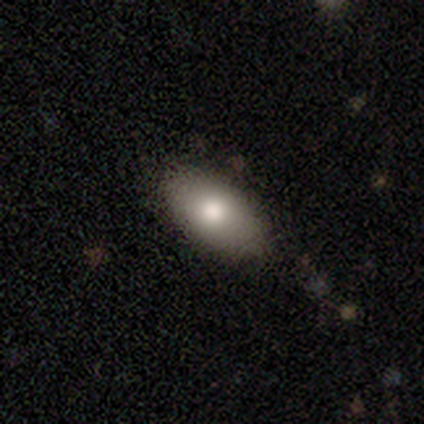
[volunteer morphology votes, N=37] This is likely a smooth galaxy (70%). How rounded: clearly in between (96%). Merging: clearly none (82%).